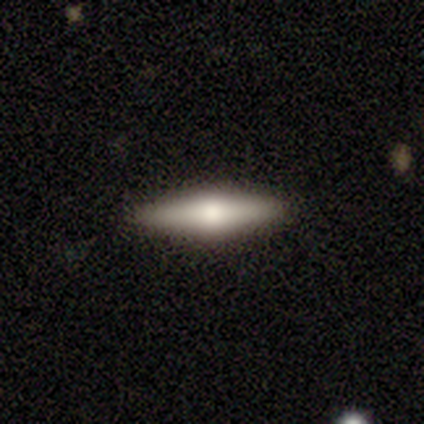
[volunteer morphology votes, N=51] smooth-or-featured: smooth: 51% | featured or disk: 45% | star or artifact: 4%
  how-rounded: cigar-shaped: 65% | in between: 35% | round: 0%
  merging: none: 96% | minor disturbance: 4% | major disturbance: 0% | merger: 0%